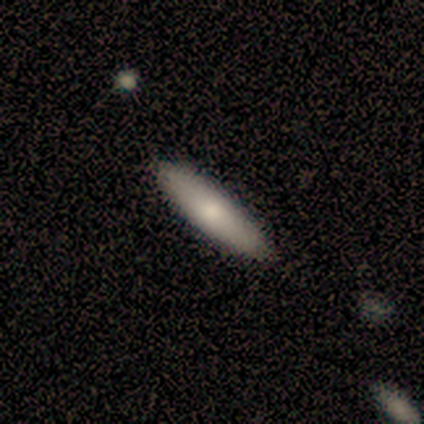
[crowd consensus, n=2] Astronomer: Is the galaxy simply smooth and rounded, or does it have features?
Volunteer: smooth — 100%.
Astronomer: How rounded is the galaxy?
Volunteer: in between — 50%, tied with cigar-shaped at 50%.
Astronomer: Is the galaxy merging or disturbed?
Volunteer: none — 100%.